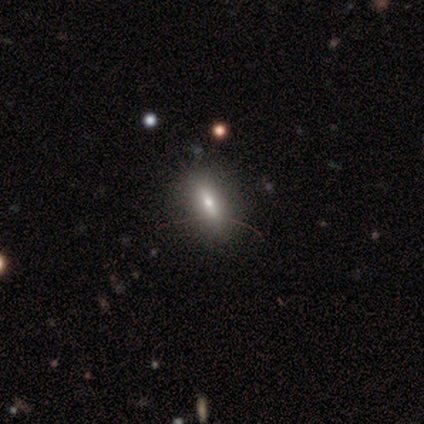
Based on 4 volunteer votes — Volunteers were most divided on "how rounded": in between: 67%, cigar-shaped: 33%, round: 0%. More confident: merging — none (100%); smooth or featured — smooth (75%).